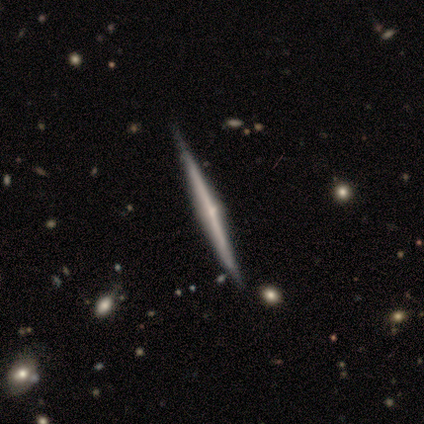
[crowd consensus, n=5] A featured or disk galaxy (60%) viewed edge-on (100%) with a rounded central bulge (100%). Merging: none (100%).